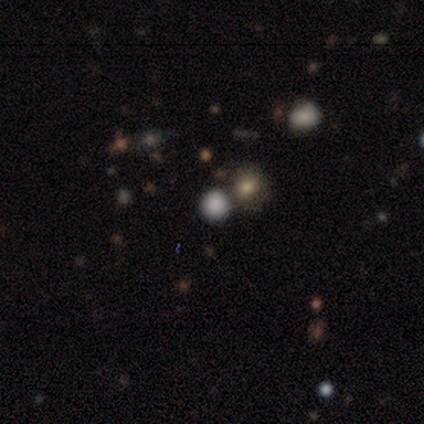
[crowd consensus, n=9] Q: Smooth or featured?
A: smooth (78%); runner-up: featured or disk (11%)
Q: How rounded?
A: round (86%); runner-up: in between (14%)
Q: Merging?
A: none (62%); runner-up: minor disturbance (25%)